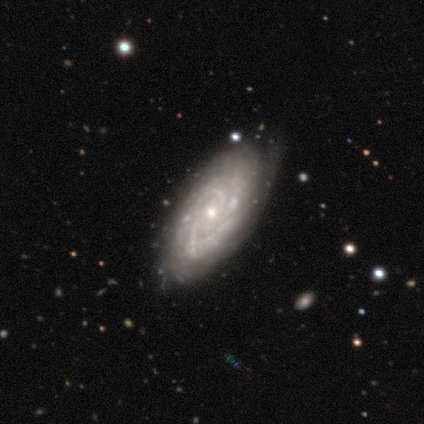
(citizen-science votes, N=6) This appears to be a featured or disk galaxy (83%) with no bar (100%), tight (60%) spiral arms (100%) and a small central bulge (60%). Merging: none (100%).